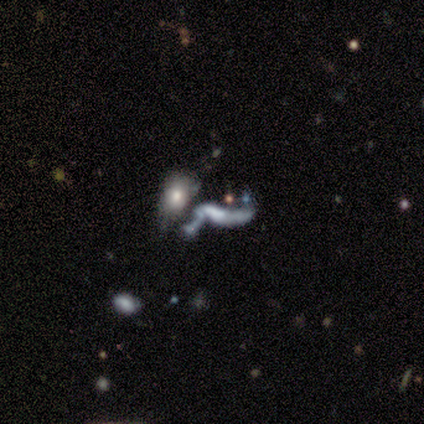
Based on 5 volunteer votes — Smooth or featured? featured or disk (60%)
Edge-on disk? no (100%)
Bar? no (100%)
Spiral arms? no (67%)
Bulge size? moderate (33%, tied with small and none)
Merging? merger (50%)